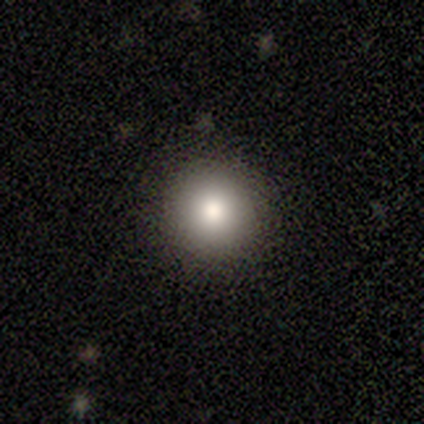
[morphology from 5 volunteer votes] Smooth or featured? 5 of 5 (100%) said smooth. How rounded? 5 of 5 (100%) said round. Merging? 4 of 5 (80%) said none.